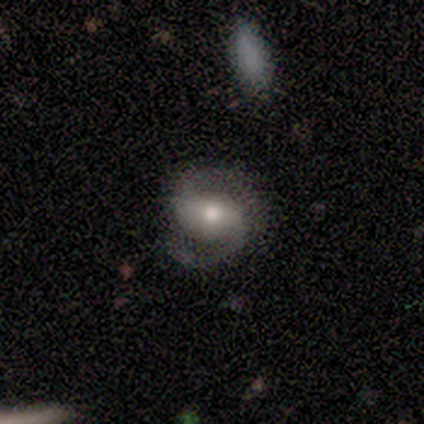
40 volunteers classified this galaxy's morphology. featured or disk 82%, smooth 15%, star or artifact 2%. Down the decision tree: edge-on disk — no (100%); bar — no (48%); spiral arms — yes (97%); spiral arm count — 2 (94%); spiral winding — medium (59%); bulge size — moderate (73%); merging — none (59%).